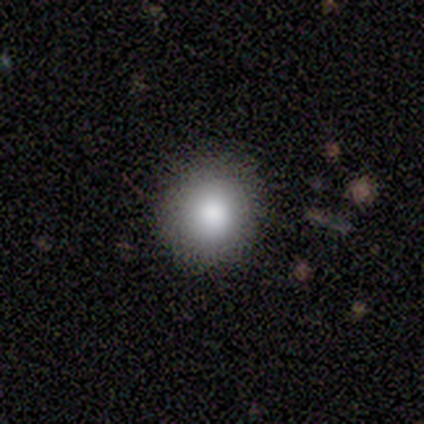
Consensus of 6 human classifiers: Smooth or featured? smooth (100%)
How rounded? round (83%)
Merging? none (50%, tied with minor disturbance)